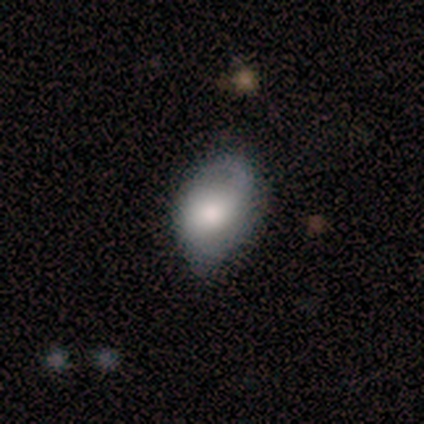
smooth-or-featured: featured or disk: 60% | smooth: 40% | star or artifact: 0%
  disk-edge-on: no: 100% | yes: 0%
    bar: no: 100% | strong: 0% | weak: 0%
    has-spiral-arms: yes: 67% | no: 33%
      spiral-winding: loose: 100% | tight: 0% | medium: 0%
      spiral-arm-count: 1: 100% | 2: 0% | 3: 0% | 4: 0% | more than 4: 0% | can't tell: 0%
    bulge-size: dominant: 33% (tied) | large: 33% (tied) | moderate: 33% (tied) | small: 0% | none: 0%
  merging: none: 60% | minor disturbance: 20% | major disturbance: 20% | merger: 0%